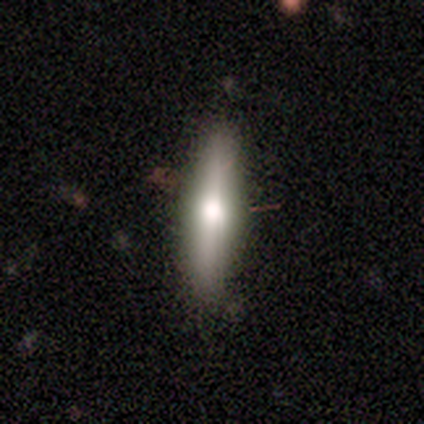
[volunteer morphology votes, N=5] smooth-or-featured: featured or disk: 60% | smooth: 40% | star or artifact: 0%
  disk-edge-on: yes: 67% | no: 33%
    edge-on-bulge: rounded: 100% | boxy: 0% | none: 0%
  merging: none: 60% | minor disturbance: 40% | major disturbance: 0% | merger: 0%